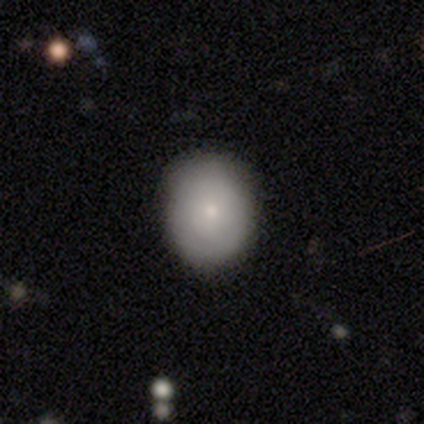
A smooth galaxy with no disk features (85%) that is in between round and cigar-shaped (52%). Merging: none (56%).